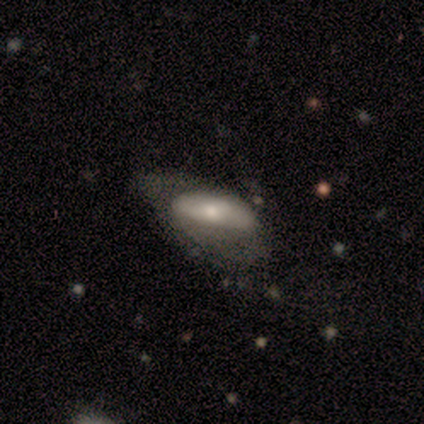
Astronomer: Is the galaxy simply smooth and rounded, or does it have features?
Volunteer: featured or disk — 60% (runner-up: smooth, 40%).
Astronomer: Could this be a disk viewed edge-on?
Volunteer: no — 100%.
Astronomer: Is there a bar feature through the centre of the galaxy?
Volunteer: no — 67%.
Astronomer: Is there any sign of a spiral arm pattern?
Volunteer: no — 100%.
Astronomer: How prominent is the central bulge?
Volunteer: moderate — 67%.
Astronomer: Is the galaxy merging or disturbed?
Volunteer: minor disturbance — 40%, tied with major disturbance at 40%.